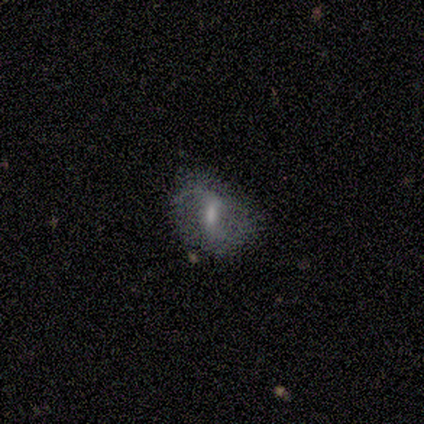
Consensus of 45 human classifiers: This is likely a featured or disk galaxy (64%). It is clearly not viewed edge-on (97%). Bar: possibly strong (46%, tied with weak). Spiral arm pattern: clearly yes (86%). Spiral arm count: clearly 2 (92%). Spiral winding: likely loose (62%). Central bulge: possibly moderate (57%). Merging: marginally none (44%, tied with minor disturbance).